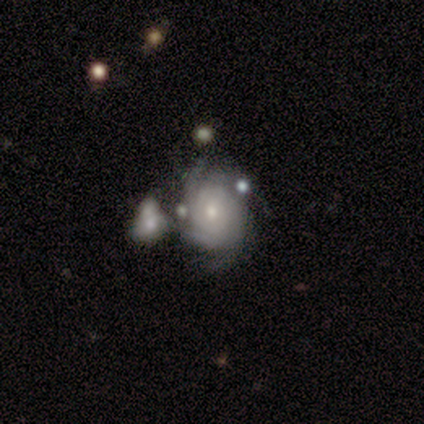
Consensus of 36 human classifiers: Morphology: type=featured or disk (86%); edge-on=no (100%); bar=no (77%); spiral arms=yes (97%); winding=tight (57%); arm count=4 (40%); bulge=small (61%); merging=merger (34%).